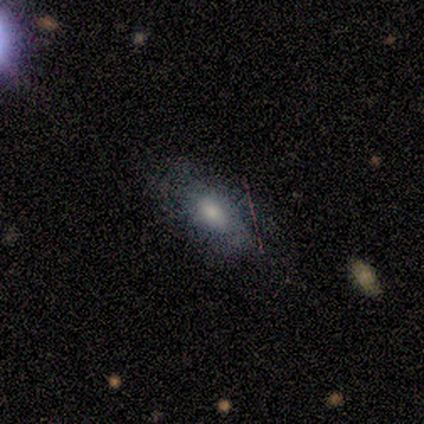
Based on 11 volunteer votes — smooth-or-featured: smooth: 73% | featured or disk: 27% | star or artifact: 0%
  how-rounded: in between: 62% | cigar-shaped: 38% | round: 0%
  merging: none: 82% | minor disturbance: 9% | merger: 9% | major disturbance: 0%